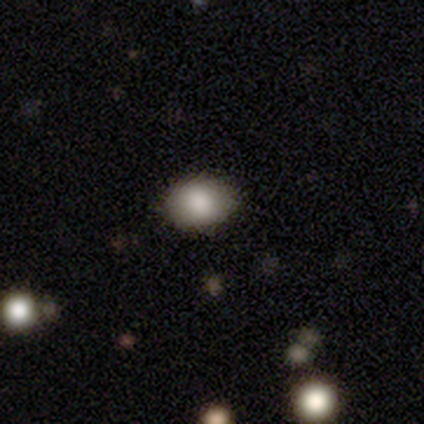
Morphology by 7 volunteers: Smooth or featured? smooth (86%)
How rounded? in between (83%)
Merging? none (100%)